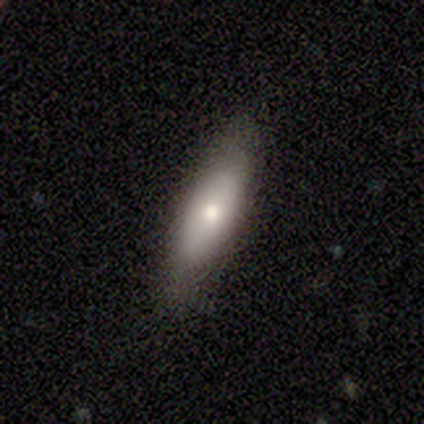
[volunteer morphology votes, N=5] This is likely a featured or disk galaxy (60%). It is likely not viewed edge-on (67%). Bar: clearly no (100%). Spiral arm pattern: clearly no (100%). Central bulge: clearly moderate (100%). Merging: clearly none (80%).